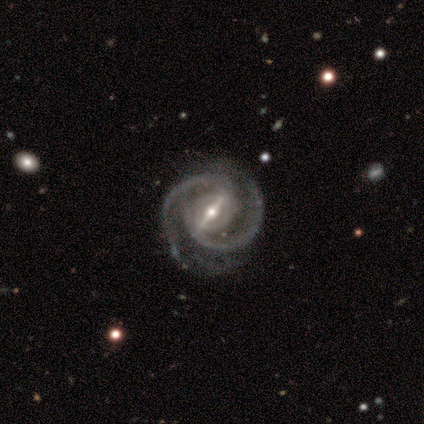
Smooth or featured?
  - featured or disk: 83% *
  - star or artifact: 17%
  - smooth: 0%
Edge-on disk?
  - no: 100% *
  - yes: 0%
Bar?
  - strong: 100% *
  - weak: 0%
  - no: 0%
Spiral arms?
  - yes: 100% *
  - no: 0%
Spiral winding?
  - medium: 80% *
  - tight: 20%
  - loose: 0%
Spiral arm count?
  - 2: 100% *
  - 1: 0%
  - 3: 0%
  - 4: 0%
  - more than 4: 0%
  - can't tell: 0%
Bulge size?
  - moderate: 60% *
  - small: 40%
  - dominant: 0%
  - large: 0%
  - none: 0%
Merging?
  - none: 80% *
  - minor disturbance: 20%
  - major disturbance: 0%
  - merger: 0%